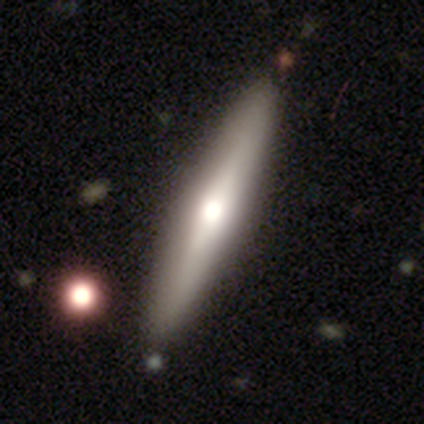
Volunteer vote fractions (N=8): This appears to be a featured or disk galaxy (75%) viewed edge-on (100%) with a rounded central bulge (100%). Merging: none (62%).